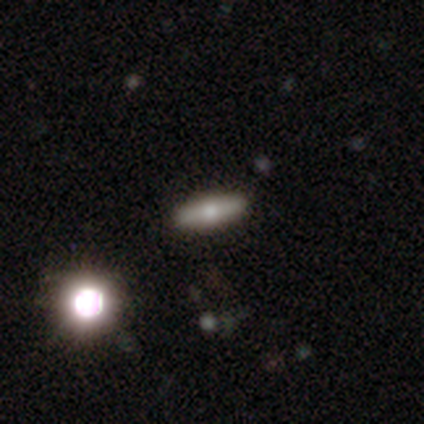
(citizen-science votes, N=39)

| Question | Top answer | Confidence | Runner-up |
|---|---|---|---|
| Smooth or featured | smooth | 56% | featured or disk (41%) |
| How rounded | cigar-shaped | 50% | in between (36%) |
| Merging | none | 55% | merger (8%) |